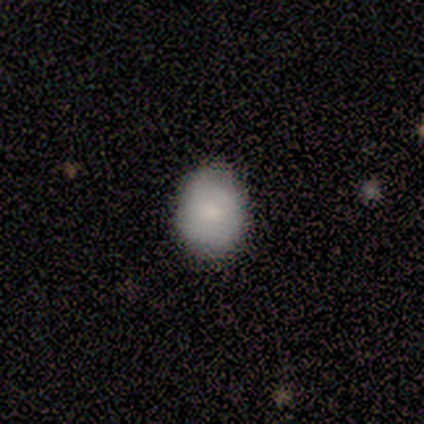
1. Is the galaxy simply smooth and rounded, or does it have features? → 79% smooth, 13% featured or disk, 8% star or artifact.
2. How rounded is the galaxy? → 57% round, 43% in between, 0% cigar-shaped.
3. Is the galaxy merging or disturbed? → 80% none, 20% minor disturbance, 0% major disturbance, 0% merger.